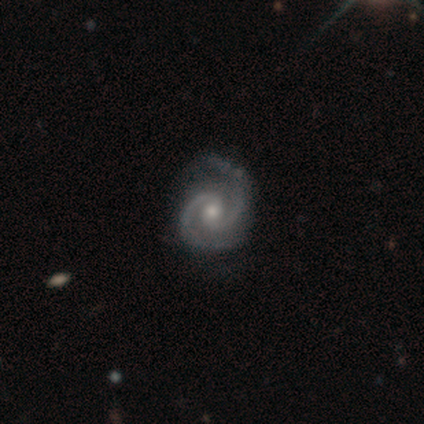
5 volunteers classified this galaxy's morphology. smooth-or-featured: featured or disk: 80% | smooth: 20% | star or artifact: 0%
  disk-edge-on: no: 100% | yes: 0%
    bar: no: 75% | weak: 25% | strong: 0%
    has-spiral-arms: yes: 100% | no: 0%
      spiral-winding: tight: 50% (tied) | medium: 50% (tied) | loose: 0%
      spiral-arm-count: 2: 100% | 1: 0% | 3: 0% | 4: 0% | more than 4: 0% | can't tell: 0%
    bulge-size: moderate: 75% | small: 25% | dominant: 0% | large: 0% | none: 0%
  merging: minor disturbance: 60% | none: 40% | major disturbance: 0% | merger: 0%